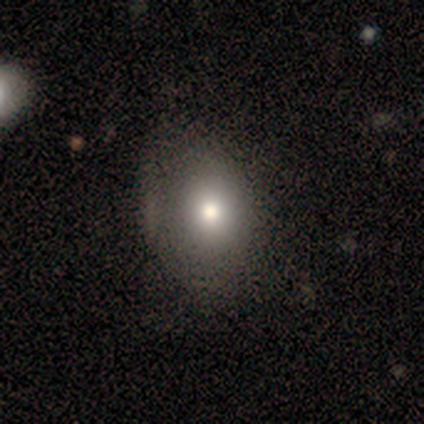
A smooth galaxy with no disk features (74%) that is in between round and cigar-shaped (72%).

Vote fractions:
- Smooth or featured? smooth: 74% / featured or disk: 15% / star or artifact: 10%
- How rounded? in between: 72% / round: 28% / cigar-shaped: 0%
- Merging? none: 43% / minor disturbance: 23% / major disturbance: 3% / merger: 0%